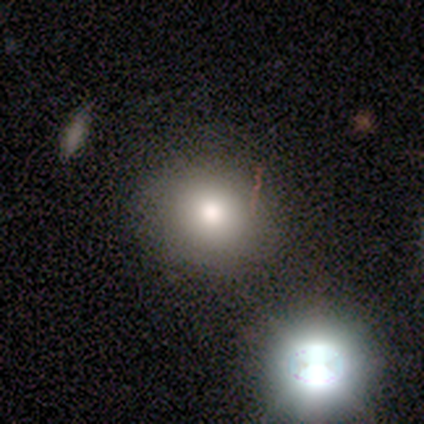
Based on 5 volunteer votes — This is clearly a smooth galaxy (100%). How rounded: clearly round (80%). Merging: clearly none (100%).